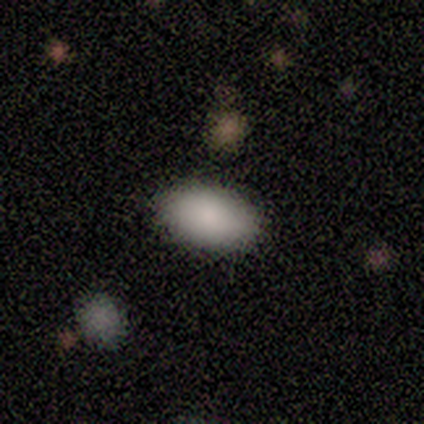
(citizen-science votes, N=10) Q: Smooth or featured?
A: smooth (90%); runner-up: star or artifact (10%)
Q: How rounded?
A: in between (89%); runner-up: round (11%)
Q: Merging?
A: none (100%)